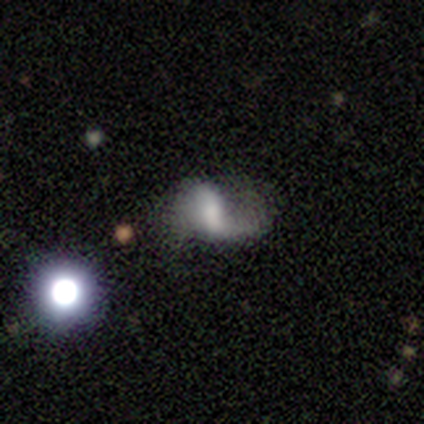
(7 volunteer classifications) Smooth or featured? 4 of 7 (57%) said smooth. How rounded? 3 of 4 (75%) said in between. Merging? 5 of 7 (71%) said major disturbance.